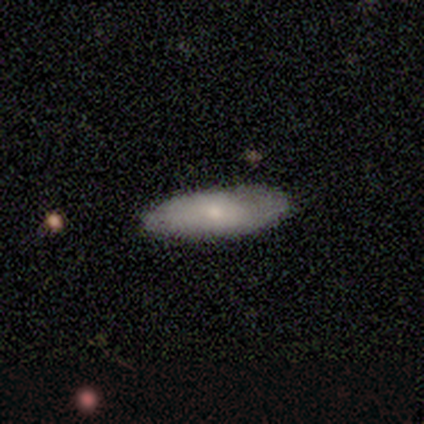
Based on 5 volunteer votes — featured or disk 60%, smooth 20%, star or artifact 20%. Down the decision tree: edge-on disk — no (67%); bar — no (100%); spiral arms — yes (50%, tied with no); spiral arm count — 2 (100%); spiral winding — medium (100%); bulge size — moderate (50%, tied with small); merging — none (75%).